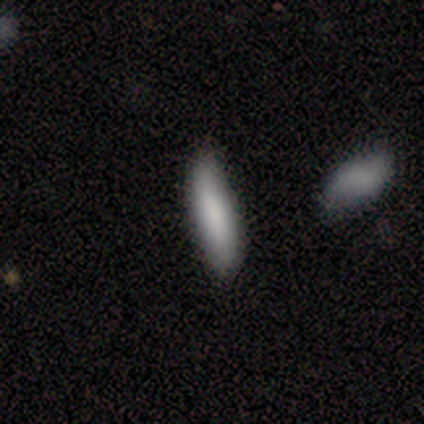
Volunteers were most divided on "merging": none: 60%, minor disturbance: 40%, major disturbance: 0%, merger: 0%. More confident: smooth or featured — smooth (100%); how rounded — cigar-shaped (100%).